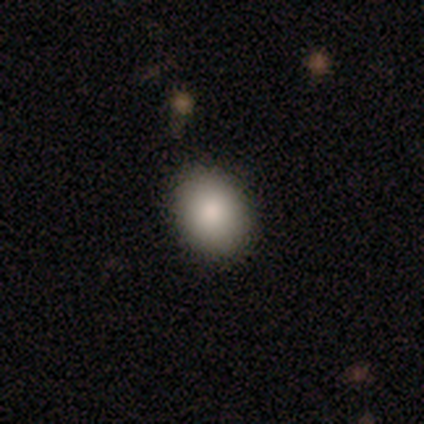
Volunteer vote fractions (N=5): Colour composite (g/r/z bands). It shows a smooth galaxy with no disk features (100%) that is round (60%). Merging: none (100%).